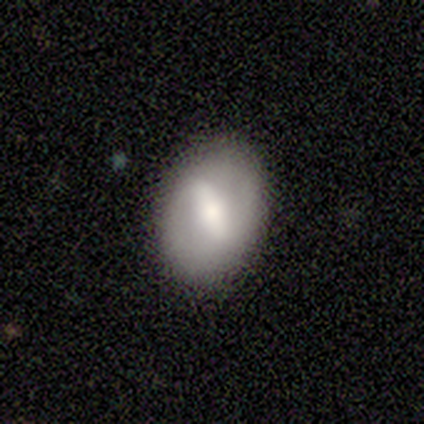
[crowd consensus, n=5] Smooth or featured: featured or disk — 60% (smooth — 40%)
Edge-on disk: no — 100%
Bar: strong — 67% (weak — 33%)
Spiral arms: yes — 67% (no — 33%)
Spiral winding: medium — 100%
Spiral arm count: 2 — 100%
Bulge size: small — 67% (moderate — 33%)
Merging: none — 80% (minor disturbance — 20%)